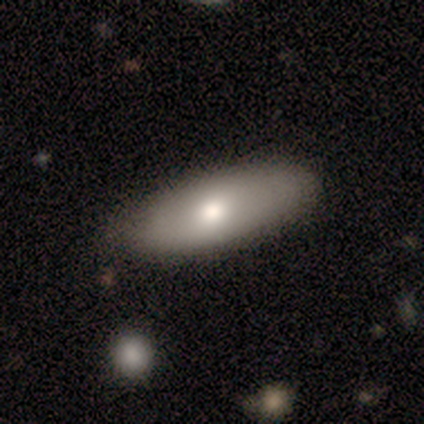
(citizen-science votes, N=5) Smooth or featured? smooth (80%)
How rounded? in between (75%)
Merging? none (50%, tied with minor disturbance)